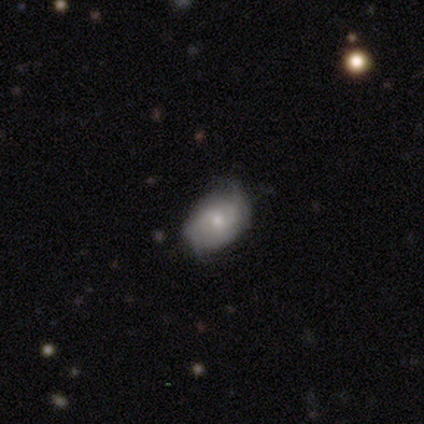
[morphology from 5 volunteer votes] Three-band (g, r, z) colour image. It shows a featured or disk galaxy (80%) with no bar (67%), medium (67%) spiral arms (100%) and a large central bulge (33%, tied with moderate and small). Merging: none (80%).